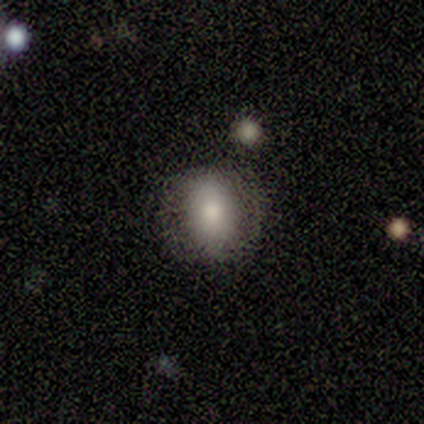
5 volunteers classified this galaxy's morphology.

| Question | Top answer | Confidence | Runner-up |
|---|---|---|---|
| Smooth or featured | smooth | 100% | — |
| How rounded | in between | 80% | round (20%) |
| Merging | none | 60% | minor disturbance (20%) |